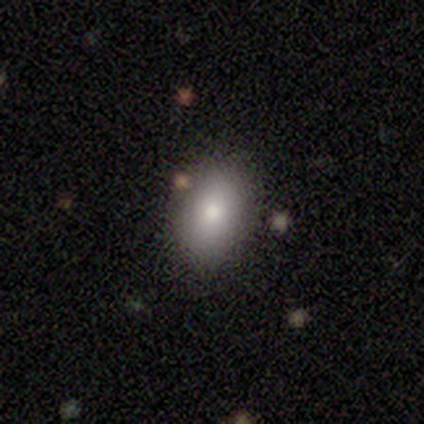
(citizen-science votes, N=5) smooth-or-featured: smooth: 80% | star or artifact: 20% | featured or disk: 0%
  how-rounded: in between: 100% | round: 0% | cigar-shaped: 0%
  merging: none: 75% | minor disturbance: 25% | major disturbance: 0% | merger: 0%